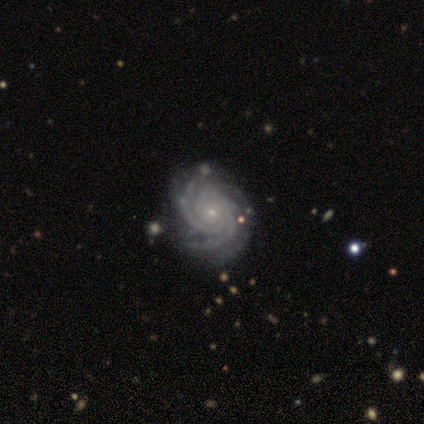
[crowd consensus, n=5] Volunteers were most divided on "spiral arm count" (2-way tie): 2: 40%, 3: 40%, can't tell: 20%, 1: 0%, 4: 0%, more than 4: 0%. More confident: smooth or featured — featured or disk (100%); edge-on disk — no (100%); bar — no (100%); spiral arms — yes (100%); spiral winding — tight (100%); bulge size — small (80%); merging — none (80%).